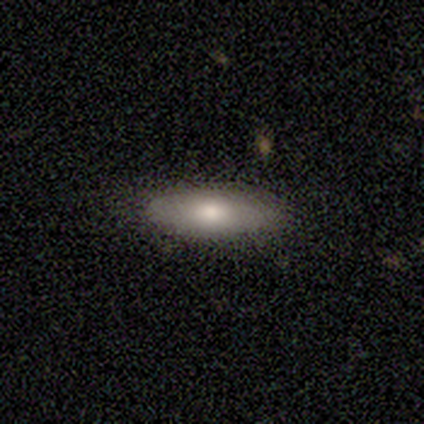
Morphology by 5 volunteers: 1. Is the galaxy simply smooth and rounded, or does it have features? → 100% smooth, 0% featured or disk, 0% star or artifact.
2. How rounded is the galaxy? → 80% in between, 20% cigar-shaped, 0% round.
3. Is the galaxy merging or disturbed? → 100% none, 0% minor disturbance, 0% major disturbance, 0% merger.